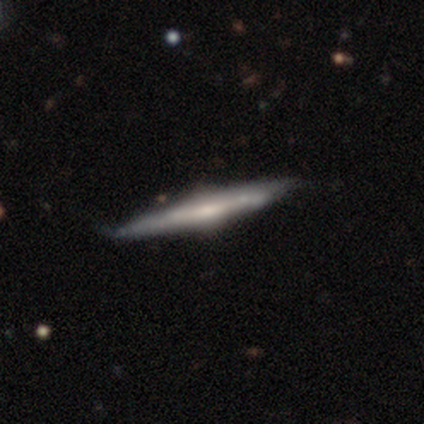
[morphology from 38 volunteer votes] This is clearly a featured or disk galaxy (82%). It is clearly viewed edge-on (97%). Edge-on bulge: likely rounded (70%). Merging: clearly none (89%).